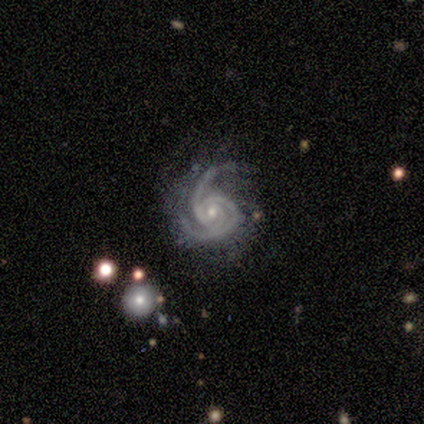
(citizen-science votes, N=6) This appears to be a featured or disk galaxy (100%) with no bar (100%), 2 (100%) tight (60%) spiral arms (100%) and a small central bulge (60%). Merging: minor disturbance (50%).